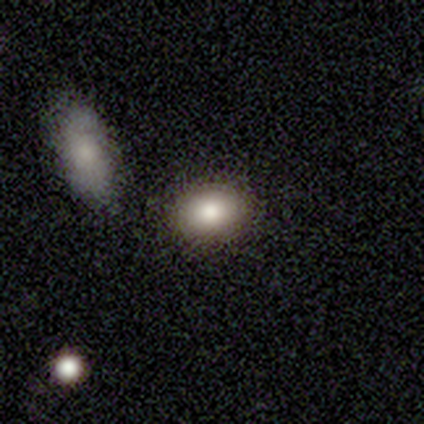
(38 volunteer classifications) Morphology: type=smooth (76%); roundness=in between (69%); merging=none (88%).